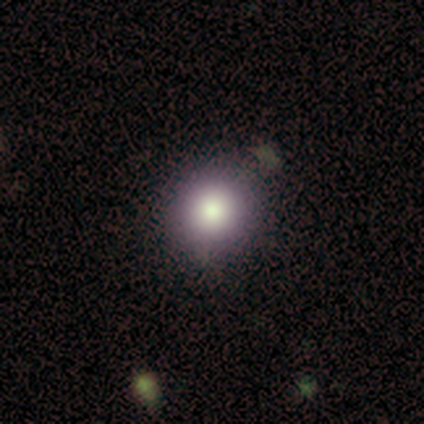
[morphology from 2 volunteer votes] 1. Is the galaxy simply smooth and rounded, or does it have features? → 100% smooth, 0% featured or disk, 0% star or artifact.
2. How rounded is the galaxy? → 50% round (tied), 50% in between (tied), 0% cigar-shaped.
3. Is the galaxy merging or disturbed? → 100% none, 0% minor disturbance, 0% major disturbance, 0% merger.